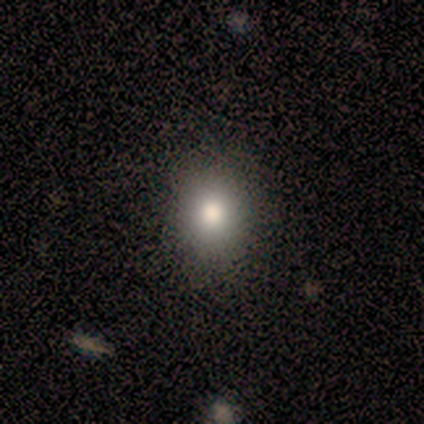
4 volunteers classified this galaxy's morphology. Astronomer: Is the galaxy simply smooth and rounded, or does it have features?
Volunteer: smooth — 100%.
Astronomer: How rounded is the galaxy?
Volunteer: round — 50%, tied with in between at 50%.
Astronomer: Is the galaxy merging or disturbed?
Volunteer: none — 75%.